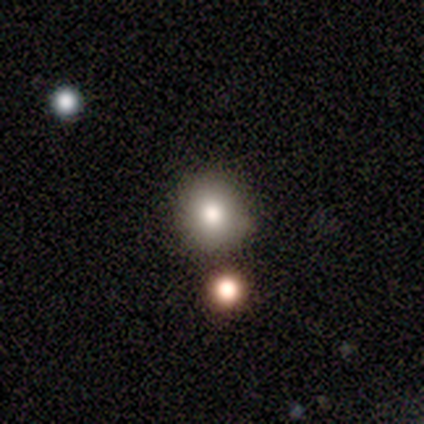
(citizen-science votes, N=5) A smooth galaxy with no disk features (80%) that is round (100%).

Vote fractions:
- Smooth or featured? smooth: 80% / featured or disk: 20% / star or artifact: 0%
- How rounded? round: 100% / in between: 0% / cigar-shaped: 0%
- Merging? none: 80% / minor disturbance: 20% / major disturbance: 0% / merger: 0%